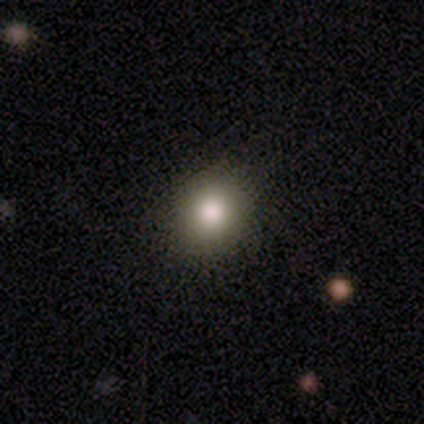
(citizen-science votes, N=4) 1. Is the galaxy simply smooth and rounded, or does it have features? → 100% smooth, 0% featured or disk, 0% star or artifact.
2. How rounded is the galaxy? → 50% round (tied), 50% in between (tied), 0% cigar-shaped.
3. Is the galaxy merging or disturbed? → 75% none, 25% minor disturbance, 0% major disturbance, 0% merger.